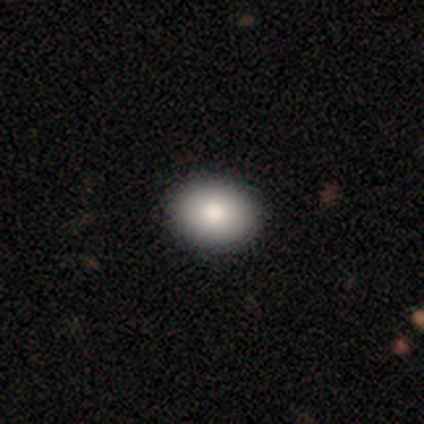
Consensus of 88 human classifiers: This is clearly a smooth galaxy (84%). How rounded: likely in between (65%). Merging: clearly none (91%).